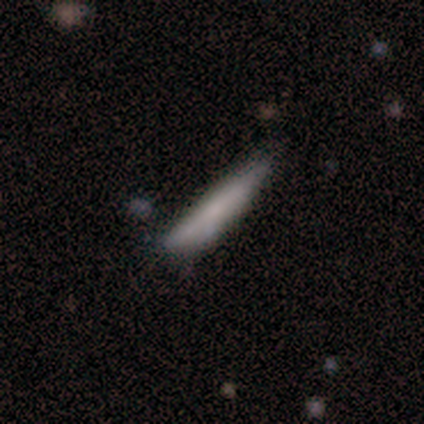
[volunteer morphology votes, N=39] Smooth or featured?
  - smooth: 77% *
  - featured or disk: 21%
  - star or artifact: 3%
How rounded?
  - cigar-shaped: 87% *
  - in between: 10%
  - round: 3%
Merging?
  - none: 76% *
  - minor disturbance: 18%
  - merger: 5%
  - major disturbance: 0%